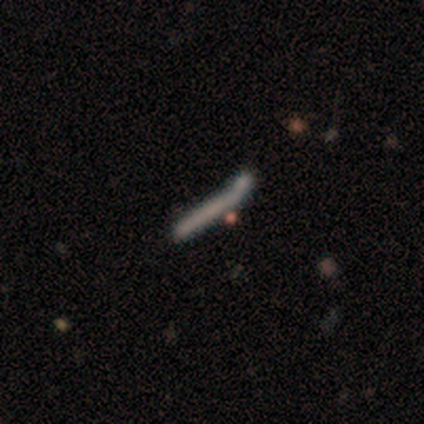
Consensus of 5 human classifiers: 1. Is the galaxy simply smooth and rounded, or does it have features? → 60% featured or disk, 40% smooth, 0% star or artifact.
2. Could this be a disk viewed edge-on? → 100% yes, 0% no.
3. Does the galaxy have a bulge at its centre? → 100% none, 0% boxy, 0% rounded.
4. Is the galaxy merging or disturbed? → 60% none, 40% minor disturbance, 0% major disturbance, 0% merger.